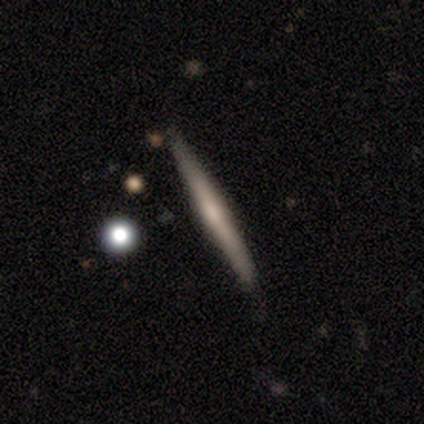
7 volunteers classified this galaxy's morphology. smooth_or_featured: featured or disk (p=0.86) [alt: smooth p=0.14]
disk_edge_on: yes (p=1.00)
edge_on_bulge: rounded (p=0.50) [alt: none p=0.33]
merging: none (p=1.00)